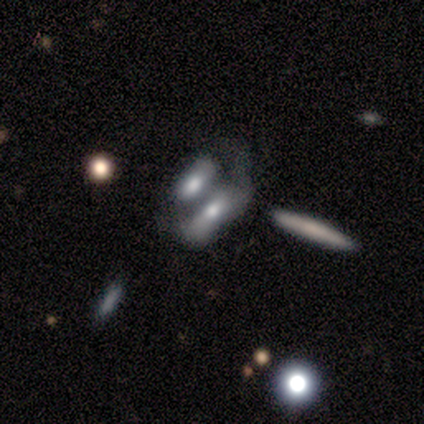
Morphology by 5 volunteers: smooth-or-featured: smooth: 60% | featured or disk: 20% | star or artifact: 20%
  how-rounded: cigar-shaped: 67% | in between: 33% | round: 0%
  merging: none: 25% (tied) | minor disturbance: 25% (tied) | major disturbance: 25% (tied) | merger: 25% (tied)